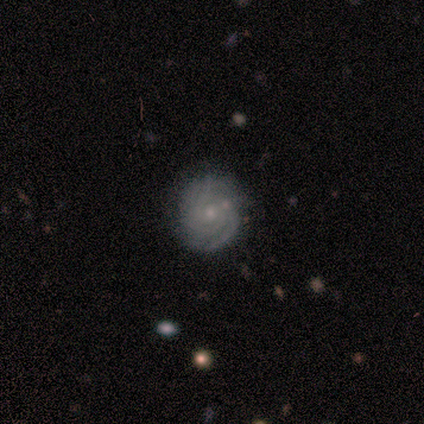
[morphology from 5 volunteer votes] smooth_or_featured: featured or disk (p=0.60) [alt: smooth p=0.40]
disk_edge_on: no (p=1.00)
bar: no (p=0.67) [alt: weak p=0.33]
has_spiral_arms: yes (p=1.00)
spiral_winding: tight (p=1.00)
spiral_arm_count: 2 (p=0.67) [alt: can't tell p=0.33]
bulge_size: moderate (p=0.67) [alt: small p=0.33]
merging: none (p=0.80) [alt: major disturbance p=0.20]